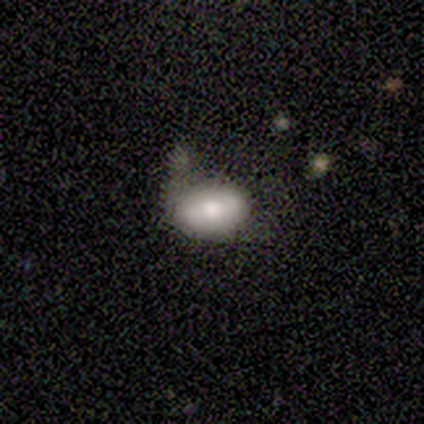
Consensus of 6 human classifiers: smooth-or-featured: smooth: 100% | featured or disk: 0% | star or artifact: 0%
  how-rounded: in between: 83% | round: 17% | cigar-shaped: 0%
  merging: minor disturbance: 83% | major disturbance: 17% | none: 0% | merger: 0%